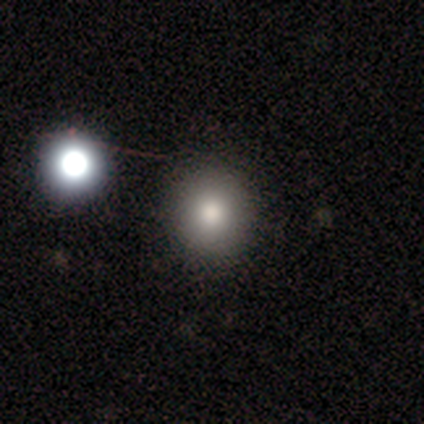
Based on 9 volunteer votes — smooth_or_featured: smooth (p=0.89) [alt: star or artifact p=0.11]
how_rounded: round (p=0.88) [alt: in between p=0.12]
merging: none (p=0.75) [alt: minor disturbance p=0.12]